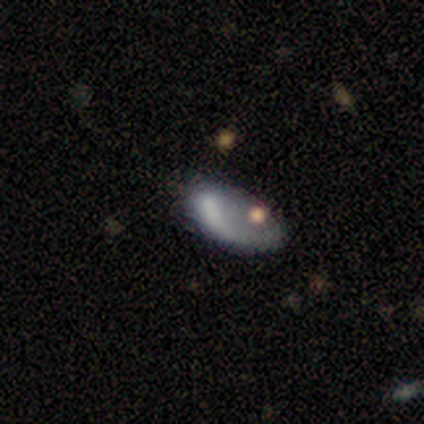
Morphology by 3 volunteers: This is likely a smooth galaxy (67%). How rounded: clearly in between (100%). Merging: possibly minor disturbance (50%, tied with major disturbance).